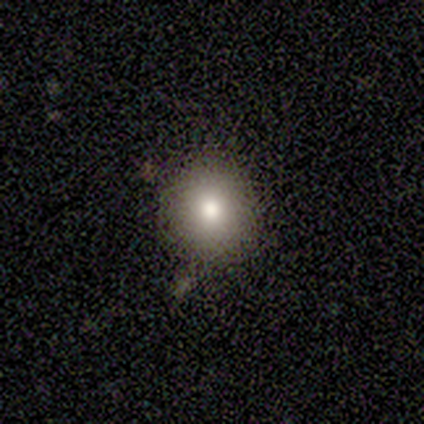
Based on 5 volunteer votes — smooth_or_featured: smooth (p=0.80) [alt: star or artifact p=0.20]
how_rounded: round (p=1.00)
merging: none (p=1.00)